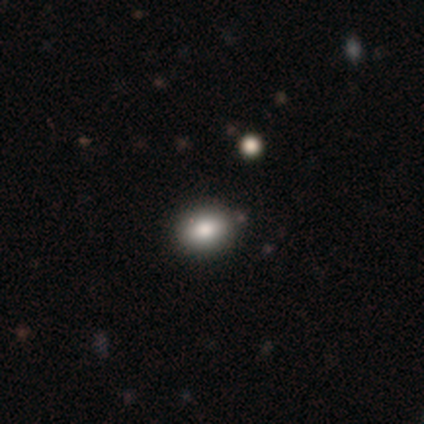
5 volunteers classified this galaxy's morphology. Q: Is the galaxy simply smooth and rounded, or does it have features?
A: smooth — 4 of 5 (80%).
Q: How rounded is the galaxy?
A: round — 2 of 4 (50%, tied with in between).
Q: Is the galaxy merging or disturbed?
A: none — 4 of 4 (100%).